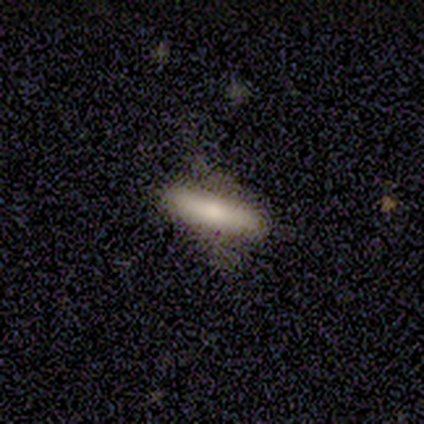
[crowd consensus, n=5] Smooth or featured: smooth — 100%
How rounded: cigar-shaped — 60% (in between — 40%)
Merging: none — 80% (major disturbance — 20%)